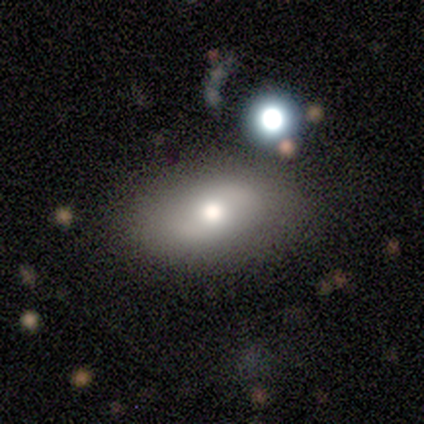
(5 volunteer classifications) Smooth or featured?
  - smooth: 40% * (tied)
  - featured or disk: 40% * (tied)
  - star or artifact: 20%
How rounded?
  - in between: 100% *
  - round: 0%
  - cigar-shaped: 0%
Merging?
  - none: 75% *
  - minor disturbance: 25%
  - major disturbance: 0%
  - merger: 0%